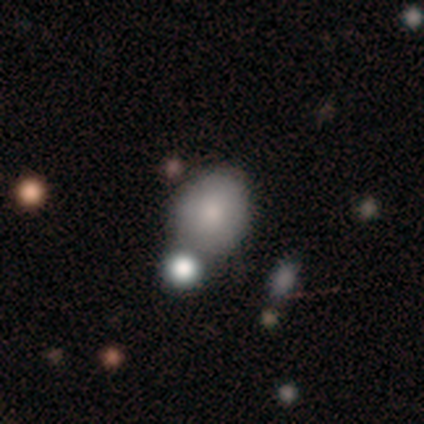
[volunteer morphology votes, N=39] Smooth or featured: smooth — 79% (featured or disk — 13%)
How rounded: round — 65% (in between — 35%)
Merging: none — 53% (merger — 33%)